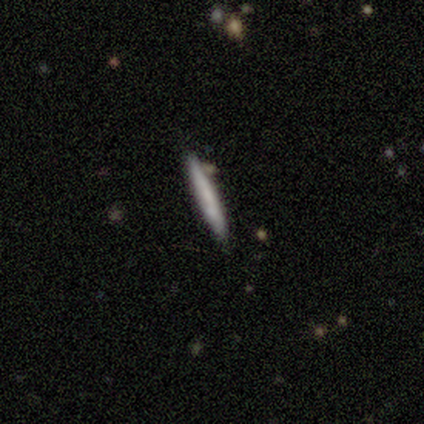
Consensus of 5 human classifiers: smooth_or_featured: smooth (p=0.80) [alt: featured or disk p=0.20]
how_rounded: cigar-shaped (p=1.00)
merging: none (p=0.80) [alt: minor disturbance p=0.20]